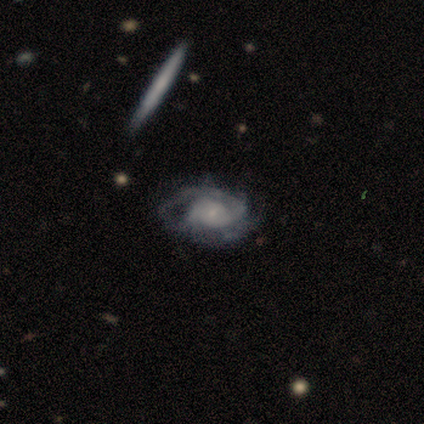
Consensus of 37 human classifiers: Morphology: type=featured or disk (92%); edge-on=no (94%); bar=no (69%); spiral arms=yes (97%); winding=tight (52%); arm count=2 (48%); bulge=small (72%); merging=none (62%).